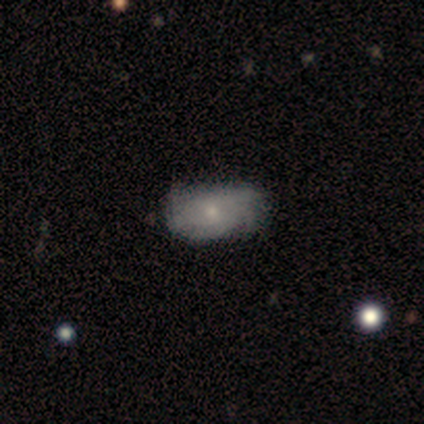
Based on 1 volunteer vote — Smooth or featured: smooth — 100%
How rounded: in between — 100%
Merging: none — 100%